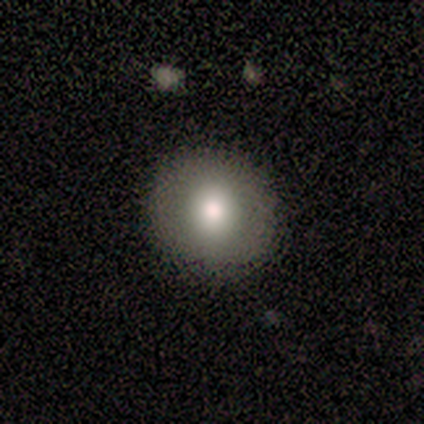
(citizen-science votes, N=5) Smooth or featured: smooth — 100%
How rounded: round — 100%
Merging: none — 100%